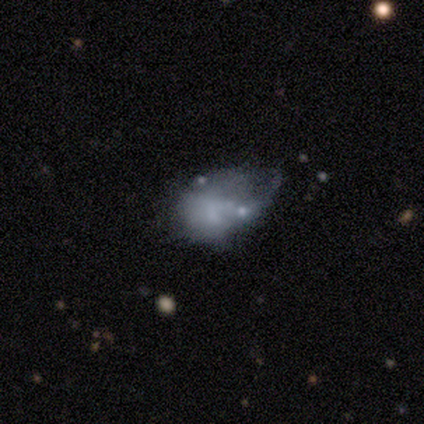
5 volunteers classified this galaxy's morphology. Smooth or featured? 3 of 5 (60%) said featured or disk. Edge-on disk? 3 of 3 (100%) said no. Bar? 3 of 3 (100%) said no. Spiral arms? 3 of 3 (100%) said no. Bulge size? 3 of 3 (100%) said none. Merging? 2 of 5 (40%, tied with major disturbance) said none.